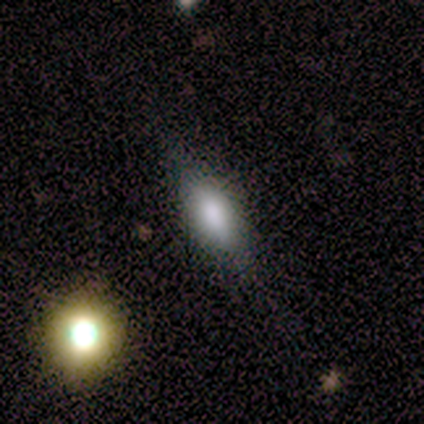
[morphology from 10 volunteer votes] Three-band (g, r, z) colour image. It shows a smooth galaxy with no disk features (90%) that is in between round and cigar-shaped (78%). Merging: none (56%).